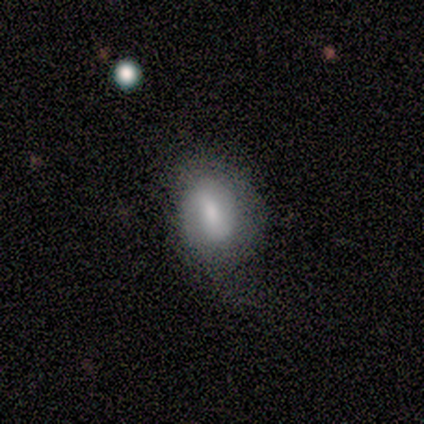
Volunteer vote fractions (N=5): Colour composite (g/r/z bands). It shows a featured or disk galaxy (60%) with a strong bar (33%, tied with weak and no), no spiral arms (67%) and a moderate central bulge (67%). Merging: none (50%).